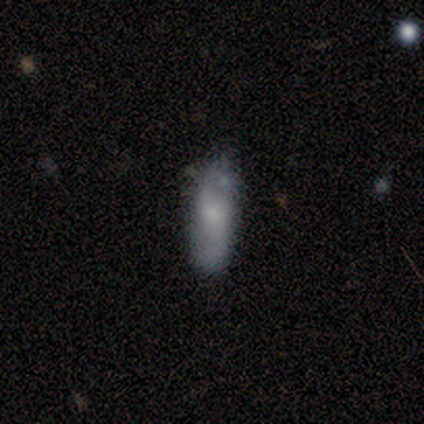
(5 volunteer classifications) Smooth or featured: smooth — 60% (featured or disk — 40%)
How rounded: cigar-shaped — 67% (in between — 33%)
Merging: none — 60% (minor disturbance — 40%)